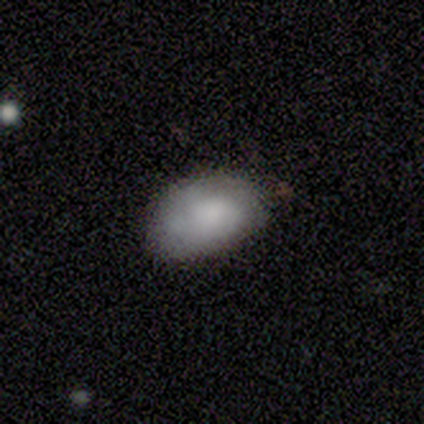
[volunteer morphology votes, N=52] A smooth galaxy with no disk features (73%) that is in between round and cigar-shaped (100%). Merging: none (63%).